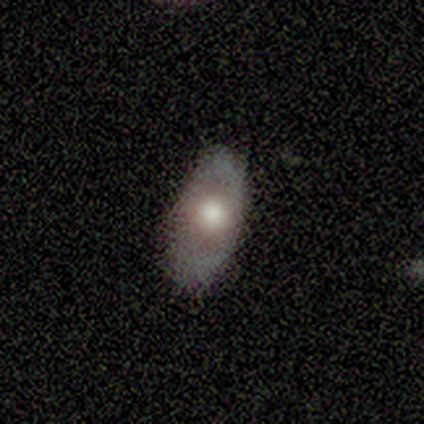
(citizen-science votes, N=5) Smooth or featured?
  - featured or disk: 60% *
  - smooth: 20%
  - star or artifact: 20%
Edge-on disk?
  - no: 67% *
  - yes: 33%
Bar?
  - no: 100% *
  - strong: 0%
  - weak: 0%
Spiral arms?
  - no: 100% *
  - yes: 0%
Bulge size?
  - large: 50% * (tied)
  - moderate: 50% * (tied)
  - dominant: 0%
  - small: 0%
  - none: 0%
Merging?
  - none: 50% *
  - major disturbance: 25%
  - merger: 25%
  - minor disturbance: 0%